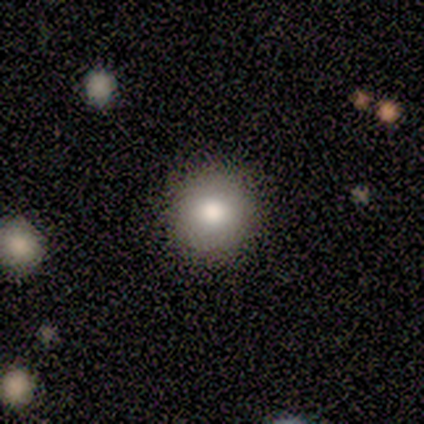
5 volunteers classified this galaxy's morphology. This is clearly a smooth galaxy (100%). How rounded: clearly round (80%). Merging: clearly none (80%).